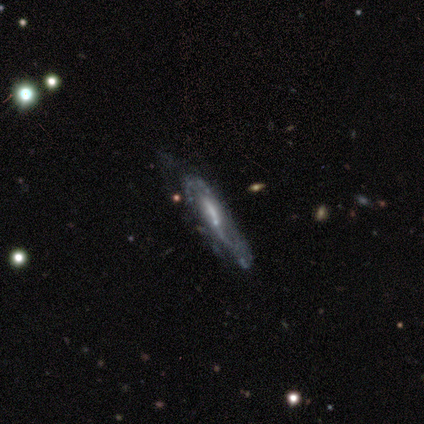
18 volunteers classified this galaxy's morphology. Smooth or featured: featured or disk — 94% (smooth — 6%)
Edge-on disk: no — 59% (yes — 41%)
Bar: no — 50% (strong — 30%)
Spiral arms: yes — 100%
Spiral winding: loose — 40% (tight — 30%)
Spiral arm count: 2 — 60% (can't tell — 40%)
Bulge size: small — 60% (moderate — 20%)
Merging: none — 72% (major disturbance — 17%)